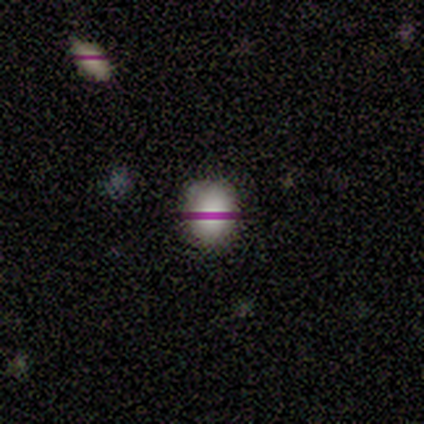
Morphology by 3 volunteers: Smooth or featured? smooth (33%, tied with featured or disk and star or artifact)
How rounded? round (100%)
Merging? none (100%)